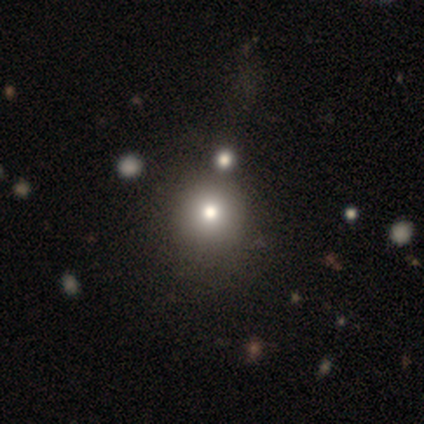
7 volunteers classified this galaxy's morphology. smooth-or-featured: smooth: 86% | star or artifact: 14% | featured or disk: 0%
  how-rounded: round: 100% | in between: 0% | cigar-shaped: 0%
  merging: none: 67% | merger: 33% | minor disturbance: 0% | major disturbance: 0%